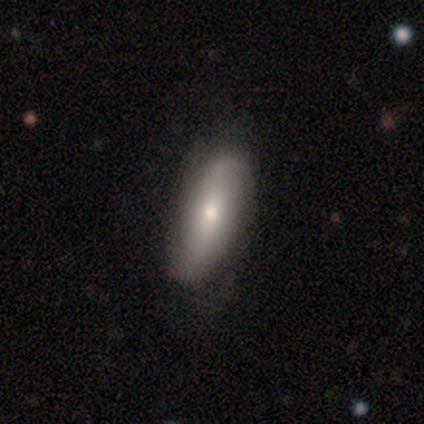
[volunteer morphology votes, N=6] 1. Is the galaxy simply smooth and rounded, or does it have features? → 67% featured or disk, 17% smooth, 17% star or artifact.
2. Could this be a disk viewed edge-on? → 100% no, 0% yes.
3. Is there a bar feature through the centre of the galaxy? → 100% no, 0% strong, 0% weak.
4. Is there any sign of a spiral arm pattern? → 50% yes (tied), 50% no (tied).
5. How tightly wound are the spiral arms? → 50% medium (tied), 50% loose (tied), 0% tight.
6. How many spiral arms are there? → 50% 2 (tied), 50% can't tell (tied), 0% 1, 0% 3, 0% 4, 0% more than 4.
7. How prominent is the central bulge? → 100% moderate, 0% dominant, 0% large, 0% small, 0% none.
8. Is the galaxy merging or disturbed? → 60% none, 40% minor disturbance, 0% major disturbance, 0% merger.